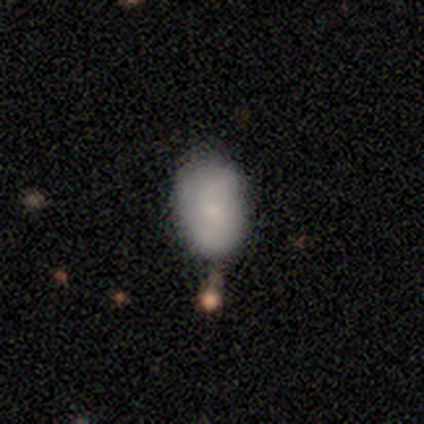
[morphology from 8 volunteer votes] This is likely a smooth galaxy (75%). How rounded: clearly in between (100%). Merging: likely none (71%).